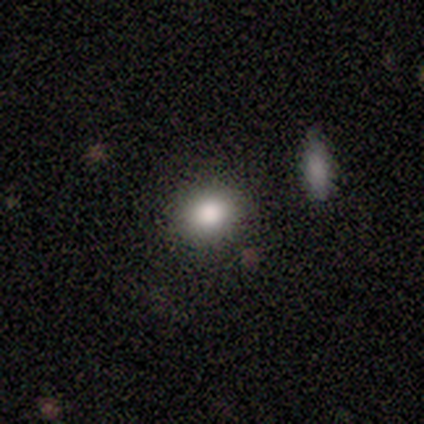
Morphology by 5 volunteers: Smooth or featured? smooth (80%)
How rounded? round (75%)
Merging? none (100%)